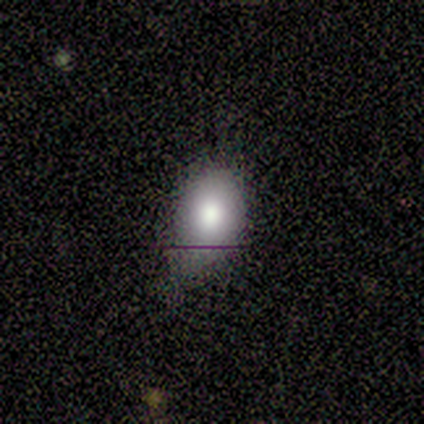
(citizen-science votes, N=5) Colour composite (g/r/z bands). It shows a smooth galaxy with no disk features (80%) that is round (75%). Merging: none (60%).